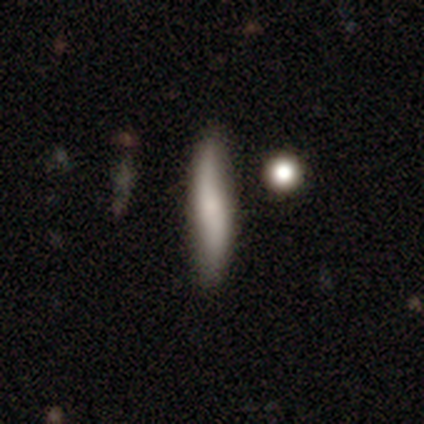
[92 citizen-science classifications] Q: Smooth or featured?
A: smooth (59%); runner-up: featured or disk (35%)
Q: How rounded?
A: cigar-shaped (93%); runner-up: in between (6%)
Q: Merging?
A: none (78%); runner-up: minor disturbance (15%)